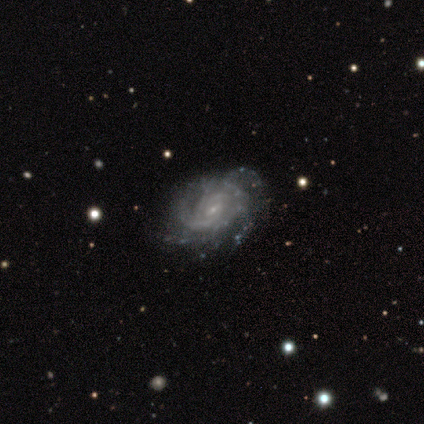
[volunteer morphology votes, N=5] Volunteers were most divided on "merging" (2-way tie): none: 40%, minor disturbance: 40%, major disturbance: 20%, merger: 0%. More confident: smooth or featured — featured or disk (100%); edge-on disk — no (100%); spiral arms — yes (100%); bulge size — small (100%); bar — weak (80%); spiral winding — tight (80%); spiral arm count — can't tell (60%).